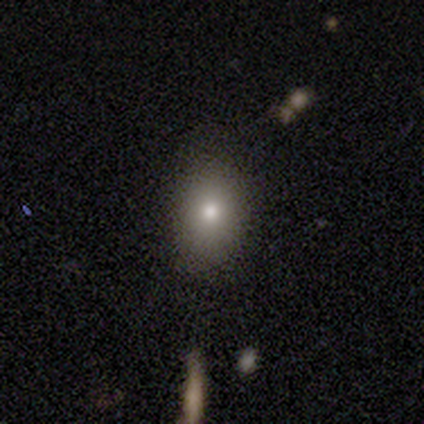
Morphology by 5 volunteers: Volunteers were most divided on "how rounded": in between: 60%, round: 40%, cigar-shaped: 0%. More confident: smooth or featured — smooth (100%); merging — none (100%).